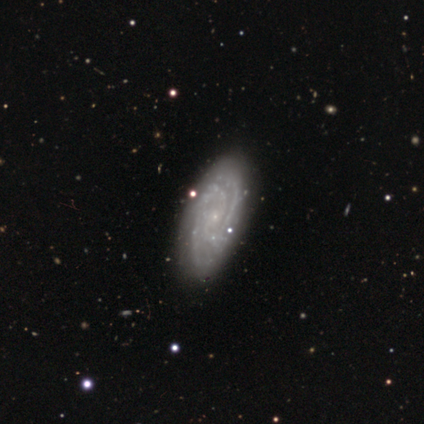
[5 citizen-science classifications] smooth_or_featured: featured or disk (p=1.00)
disk_edge_on: no (p=1.00)
bar: no (p=0.80) [alt: weak p=0.20]
has_spiral_arms: yes (p=1.00)
spiral_winding: tight (p=1.00)
spiral_arm_count: 2 (p=0.60) [alt: more than 4 p=0.20]
bulge_size: small (p=0.80) [alt: none p=0.20]
merging: none (p=0.80) [alt: minor disturbance p=0.20]